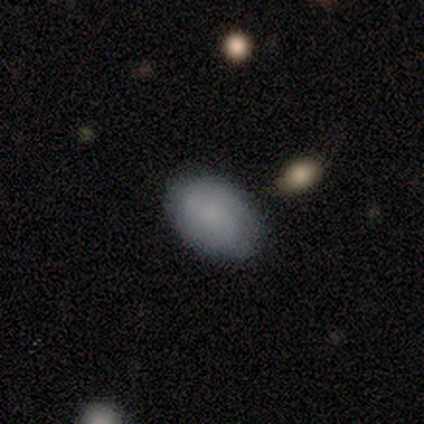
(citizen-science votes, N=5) Q: Smooth or featured?
A: smooth (100%)
Q: How rounded?
A: in between (100%)
Q: Merging?
A: none (80%); runner-up: minor disturbance (20%)